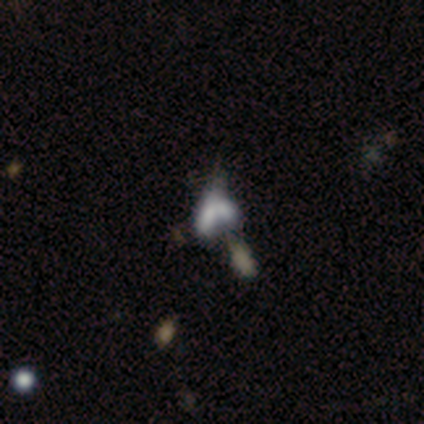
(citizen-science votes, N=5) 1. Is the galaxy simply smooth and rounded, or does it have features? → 60% smooth, 40% featured or disk, 0% star or artifact.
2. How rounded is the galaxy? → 67% in between, 33% cigar-shaped, 0% round.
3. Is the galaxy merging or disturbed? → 80% merger, 20% minor disturbance, 0% none, 0% major disturbance.